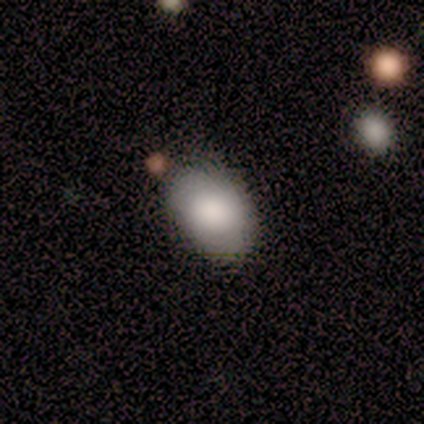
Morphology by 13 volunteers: Smooth or featured? smooth (92%)
How rounded? in between (100%)
Merging? none (69%)